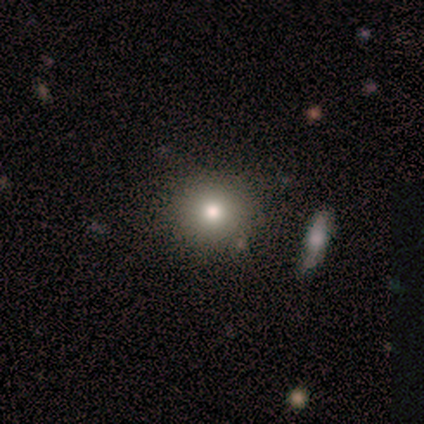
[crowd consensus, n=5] This appears to be a smooth galaxy with no disk features (60%) that is round (67%). Merging: none (80%).